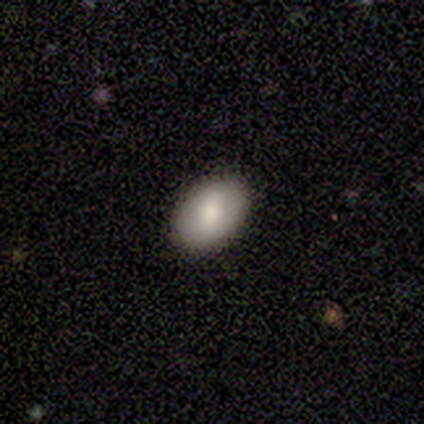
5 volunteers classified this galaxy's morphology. Smooth or featured? smooth (80%)
How rounded? round (50%, tied with in between)
Merging? none (100%)